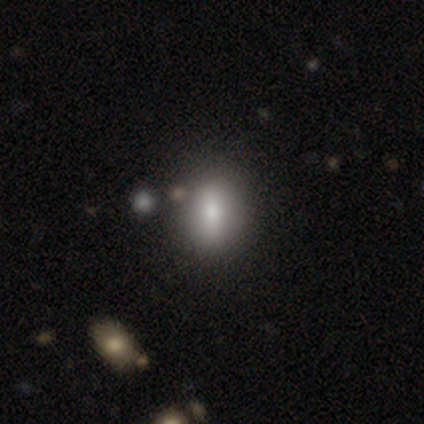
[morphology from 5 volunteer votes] smooth-or-featured: smooth: 60% | featured or disk: 20% | star or artifact: 20%
  how-rounded: in between: 67% | round: 33% | cigar-shaped: 0%
  merging: none: 100% | minor disturbance: 0% | major disturbance: 0% | merger: 0%